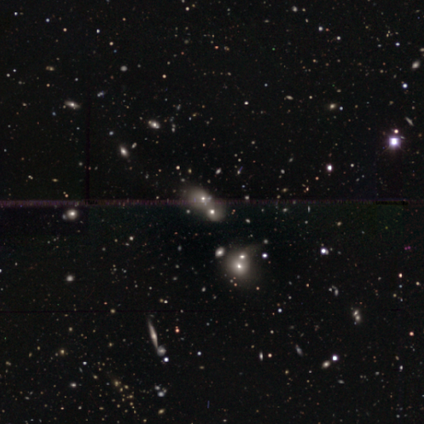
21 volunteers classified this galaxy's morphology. A featured or disk galaxy (38%) with no bar (86%), no spiral arms (71%) and a large central bulge (43%). Merging: merger (80%).